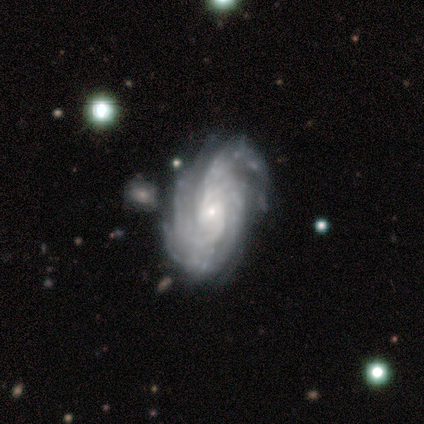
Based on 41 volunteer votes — Smooth or featured? 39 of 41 (95%) said featured or disk. Edge-on disk? 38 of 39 (97%) said no. Bar? 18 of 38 (47%) said no. Spiral arms? 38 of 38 (100%) said yes. Spiral winding? 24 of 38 (63%) said tight. Spiral arm count? 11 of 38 (29%) said 4. Bulge size? 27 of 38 (71%) said small. Merging? 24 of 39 (62%) said none.